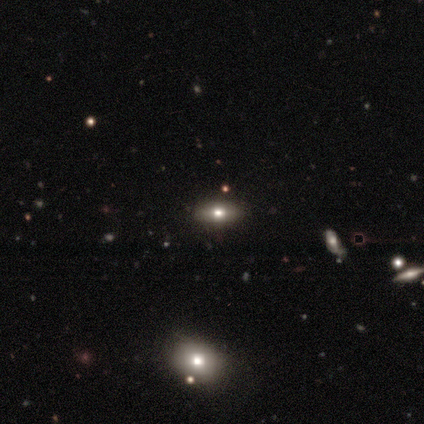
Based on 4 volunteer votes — A smooth galaxy with no disk features (50%, tied with star or artifact) that is in between round and cigar-shaped (50%, tied with cigar-shaped). Merging: none (100%).